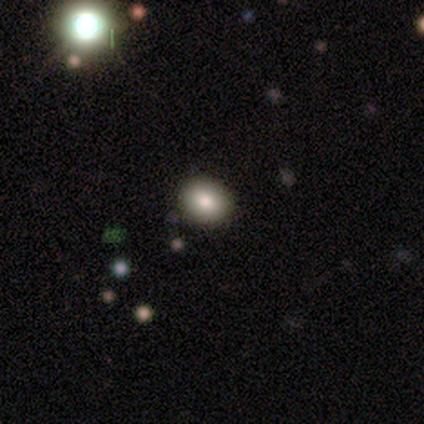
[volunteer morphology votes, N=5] Smooth or featured?
  - smooth: 100% *
  - featured or disk: 0%
  - star or artifact: 0%
How rounded?
  - in between: 60% *
  - round: 40%
  - cigar-shaped: 0%
Merging?
  - none: 100% *
  - minor disturbance: 0%
  - major disturbance: 0%
  - merger: 0%